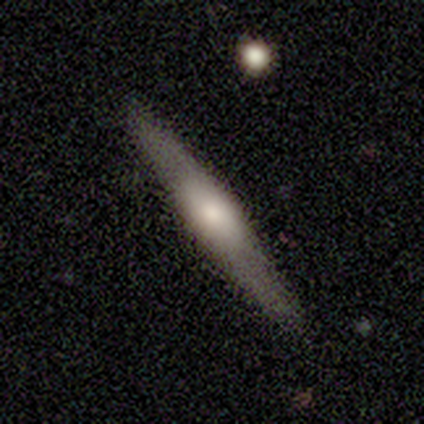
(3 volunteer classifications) Smooth or featured? 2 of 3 (67%) said featured or disk. Edge-on disk? 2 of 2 (100%) said yes. Edge-on bulge? 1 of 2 (50%, tied with rounded) said boxy. Merging? 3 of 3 (100%) said none.